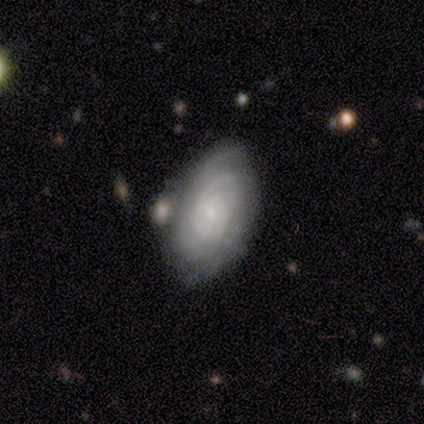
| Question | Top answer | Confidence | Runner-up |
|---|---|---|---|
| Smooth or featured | featured or disk | 100% | — |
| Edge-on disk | no | 80% | yes (20%) |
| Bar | no | 75% | weak (25%) |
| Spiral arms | yes | 100% | — |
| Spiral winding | tight | 100% | — |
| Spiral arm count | can't tell | 50% | 3 (25%) |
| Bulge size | small | 75% | moderate (25%) |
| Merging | minor disturbance | 60% | merger (40%) |